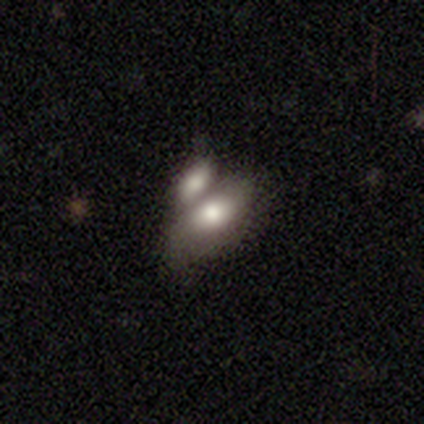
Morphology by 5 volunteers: smooth-or-featured: smooth: 60% | featured or disk: 40% | star or artifact: 0%
  how-rounded: in between: 100% | round: 0% | cigar-shaped: 0%
  merging: merger: 80% | none: 20% | minor disturbance: 0% | major disturbance: 0%